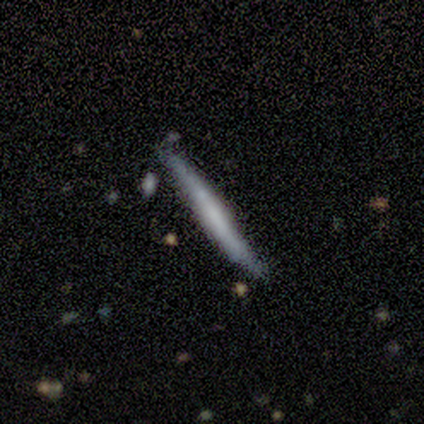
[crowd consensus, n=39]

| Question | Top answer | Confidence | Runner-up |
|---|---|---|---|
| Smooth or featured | smooth | 56% | featured or disk (36%) |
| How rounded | cigar-shaped | 100% | — |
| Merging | none | 78% | minor disturbance (22%) |